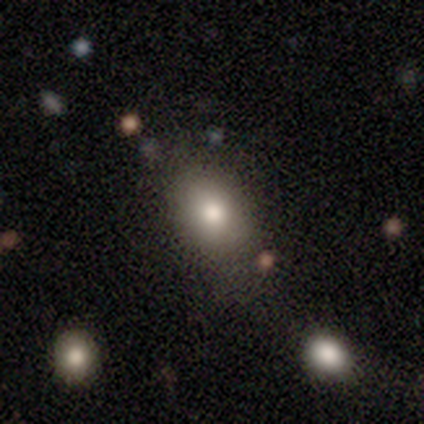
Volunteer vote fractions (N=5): Overall: smooth (100%). How rounded: in between (100%). Merging: none (100%).